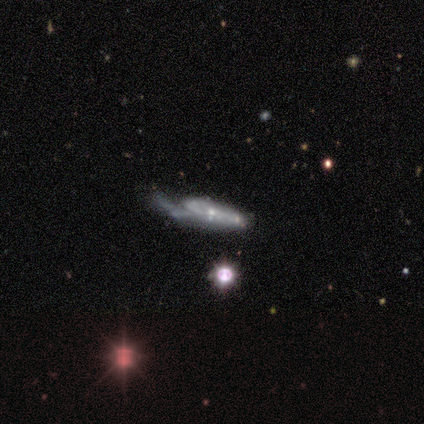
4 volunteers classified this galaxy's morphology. type=featured or disk (75%); edge-on=no (100%); bar=weak (67%); spiral arms=yes (67%); winding=tight (50%, tied with medium); arm count=can't tell (100%); bulge=small (100%); merging=none (33%, tied with minor disturbance and major disturbance).